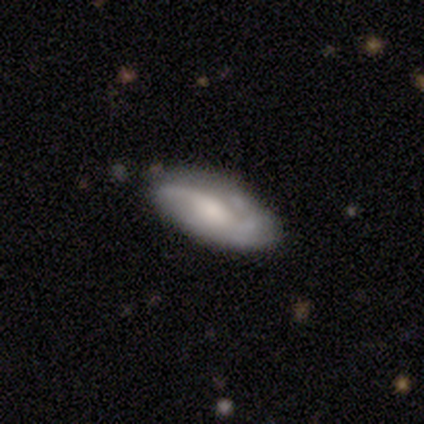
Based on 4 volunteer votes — Smooth or featured? 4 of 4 (100%) said featured or disk. Edge-on disk? 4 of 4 (100%) said no. Bar? 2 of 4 (50%) said no. Spiral arms? 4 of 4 (100%) said yes. Spiral winding? 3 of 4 (75%) said loose. Spiral arm count? 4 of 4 (100%) said 2. Bulge size? 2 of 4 (50%, tied with small) said large. Merging? 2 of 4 (50%) said none.